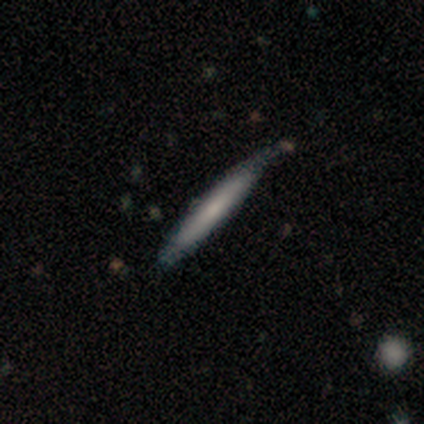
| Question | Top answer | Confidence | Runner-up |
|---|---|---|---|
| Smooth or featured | smooth | 80% | featured or disk (20%) |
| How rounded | cigar-shaped | 100% | — |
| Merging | none | 40% | tied: minor disturbance (40%) |